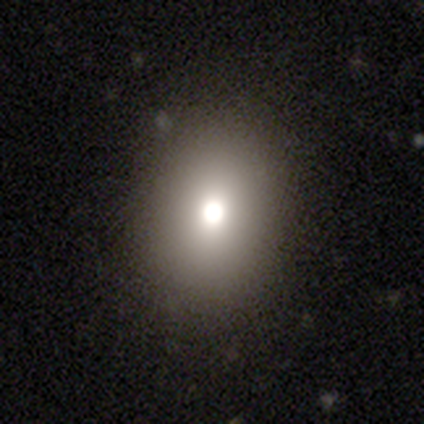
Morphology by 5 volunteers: Volunteers were most divided on "how rounded": round: 67%, in between: 33%, cigar-shaped: 0%. More confident: merging — none (100%); smooth or featured — smooth (60%).